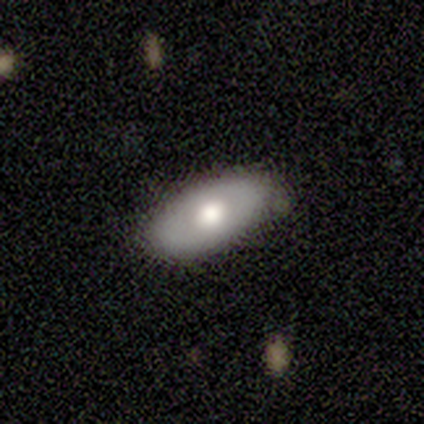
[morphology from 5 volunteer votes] Volunteers were most divided on "merging": none: 60%, minor disturbance: 40%, major disturbance: 0%, merger: 0%. More confident: how rounded — in between (100%); smooth or featured — smooth (80%).